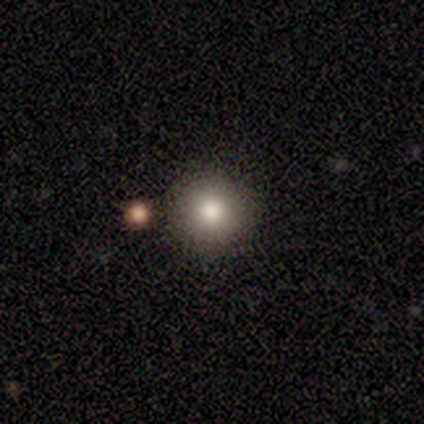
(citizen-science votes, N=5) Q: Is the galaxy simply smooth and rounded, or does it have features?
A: smooth — 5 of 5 (100%).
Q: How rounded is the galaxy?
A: round — 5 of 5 (100%).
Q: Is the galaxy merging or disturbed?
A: none — 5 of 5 (100%).